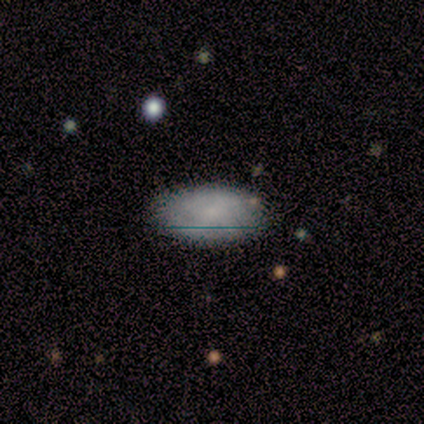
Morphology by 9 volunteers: This is likely a smooth galaxy (67%). How rounded: clearly in between (100%). Merging: likely none (75%).